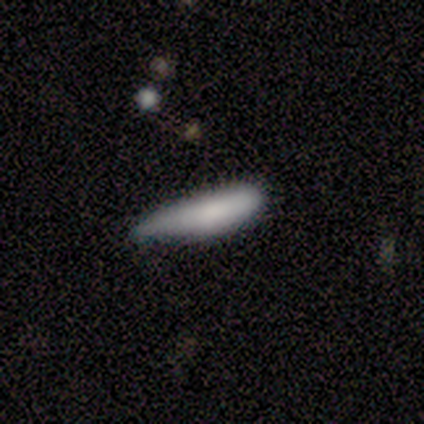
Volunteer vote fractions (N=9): Smooth or featured: smooth — 67% (featured or disk — 22%)
How rounded: cigar-shaped — 67% (in between — 33%)
Merging: minor disturbance — 88% (none — 12%)